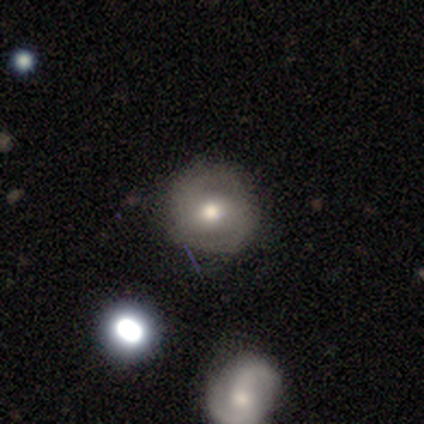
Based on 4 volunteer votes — Smooth or featured?
  - smooth: 50% * (tied)
  - featured or disk: 50% * (tied)
  - star or artifact: 0%
How rounded?
  - round: 50% * (tied)
  - in between: 50% * (tied)
  - cigar-shaped: 0%
Merging?
  - none: 100% *
  - minor disturbance: 0%
  - major disturbance: 0%
  - merger: 0%